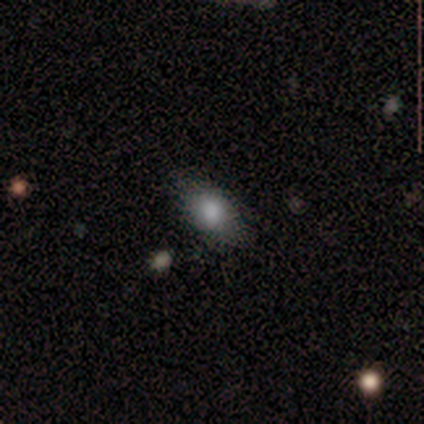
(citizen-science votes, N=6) Smooth or featured? smooth (83%)
How rounded? in between (80%)
Merging? none (67%)